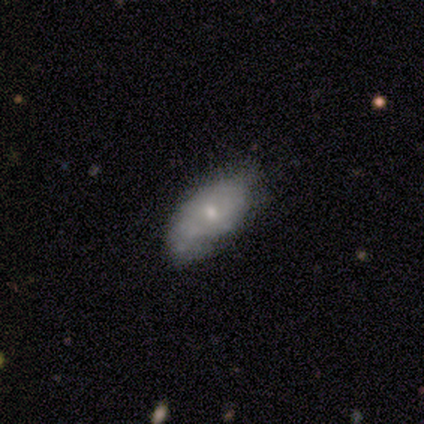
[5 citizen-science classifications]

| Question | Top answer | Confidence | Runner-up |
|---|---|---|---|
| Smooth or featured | featured or disk | 60% | smooth (40%) |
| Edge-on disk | no | 100% | — |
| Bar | no | 100% | — |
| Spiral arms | no | 67% | yes (33%) |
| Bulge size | moderate | 67% | small (33%) |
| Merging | minor disturbance | 60% | none (40%) |